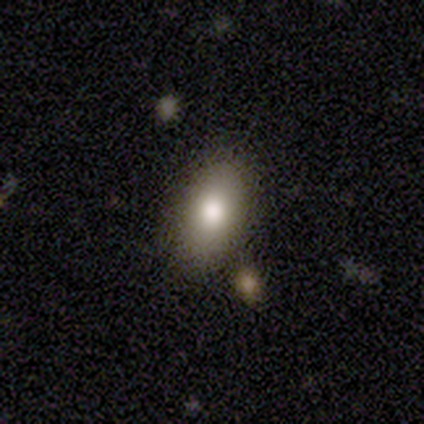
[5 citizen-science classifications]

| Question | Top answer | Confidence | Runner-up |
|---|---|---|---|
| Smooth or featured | smooth | 60% | featured or disk (40%) |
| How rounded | in between | 100% | — |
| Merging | none | 80% | minor disturbance (20%) |